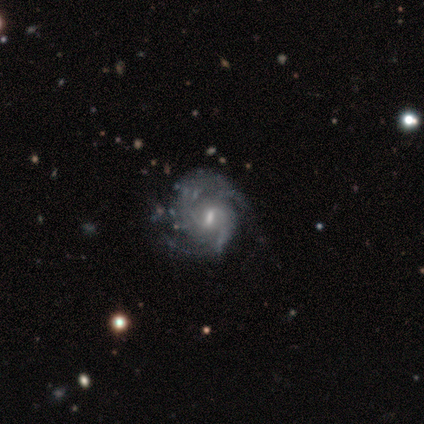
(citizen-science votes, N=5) Smooth or featured?
  - featured or disk: 100% *
  - smooth: 0%
  - star or artifact: 0%
Edge-on disk?
  - no: 80% *
  - yes: 20%
Bar?
  - weak: 100% *
  - strong: 0%
  - no: 0%
Spiral arms?
  - yes: 100% *
  - no: 0%
Spiral winding?
  - medium: 75% *
  - tight: 25%
  - loose: 0%
Spiral arm count?
  - can't tell: 50% *
  - 2: 25%
  - 4: 25%
  - 1: 0%
  - 3: 0%
  - more than 4: 0%
Bulge size?
  - moderate: 50% *
  - small: 25%
  - none: 25%
  - dominant: 0%
  - large: 0%
Merging?
  - none: 100% *
  - minor disturbance: 0%
  - major disturbance: 0%
  - merger: 0%